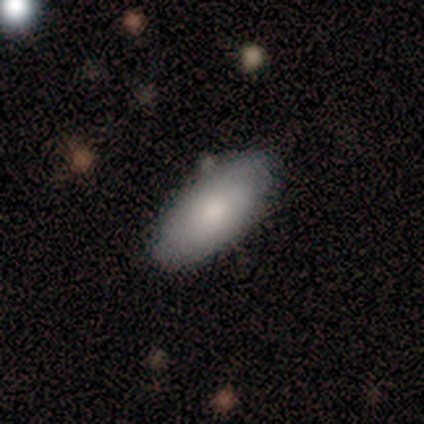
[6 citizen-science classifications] Volunteers were most divided on "merging": none: 67%, minor disturbance: 33%, major disturbance: 0%, merger: 0%. More confident: smooth or featured — smooth (83%); how rounded — in between (80%).